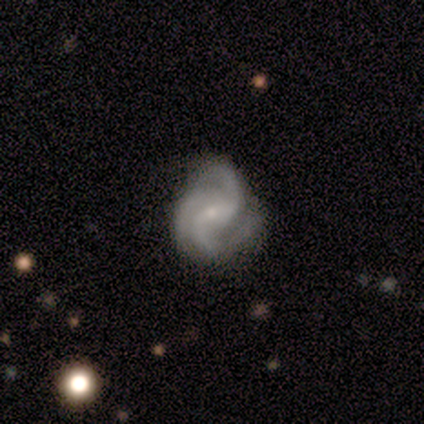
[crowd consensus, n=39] Morphology: type=featured or disk (82%); edge-on=no (100%); bar=weak (50%); spiral arms=yes (100%); winding=tight (41%); arm count=3 (66%); bulge=small (81%); merging=none (69%).